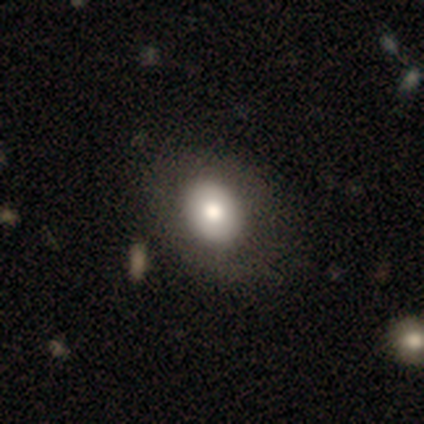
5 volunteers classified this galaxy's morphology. Smooth or featured? 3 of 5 (60%) said smooth. How rounded? 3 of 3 (100%) said in between. Merging? 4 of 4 (100%) said none.